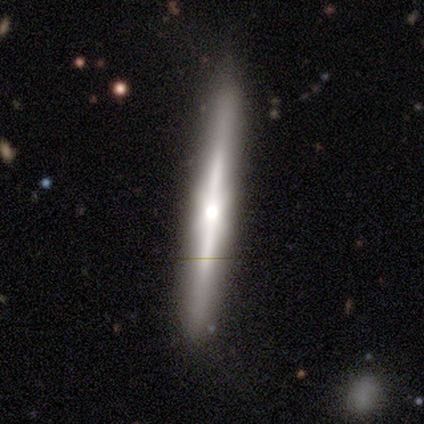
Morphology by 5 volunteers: A featured or disk galaxy (100%) viewed edge-on (100%) with a rounded central bulge (80%).

Vote fractions:
- Smooth or featured? featured or disk: 100% / smooth: 0% / star or artifact: 0%
- Edge-on disk? yes: 100% / no: 0%
- Edge-on bulge? rounded: 80% / none: 20% / boxy: 0%
- Merging? none: 100% / minor disturbance: 0% / major disturbance: 0% / merger: 0%